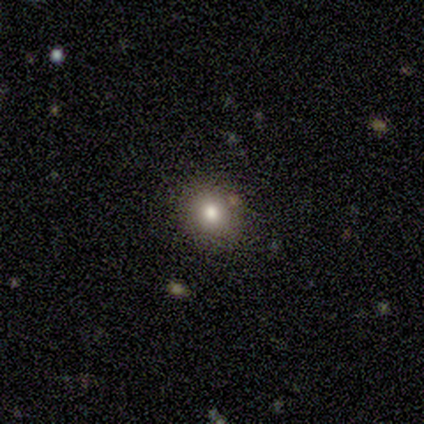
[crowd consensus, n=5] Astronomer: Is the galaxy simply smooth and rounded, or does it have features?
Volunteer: smooth — 80%.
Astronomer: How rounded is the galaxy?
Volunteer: round — 75%.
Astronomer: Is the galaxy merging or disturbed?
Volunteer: none — 75%.